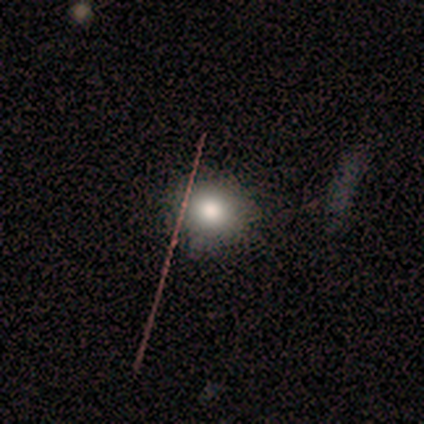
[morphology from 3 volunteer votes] Smooth or featured?
  - star or artifact: 67% *
  - smooth: 33%
  - featured or disk: 0%